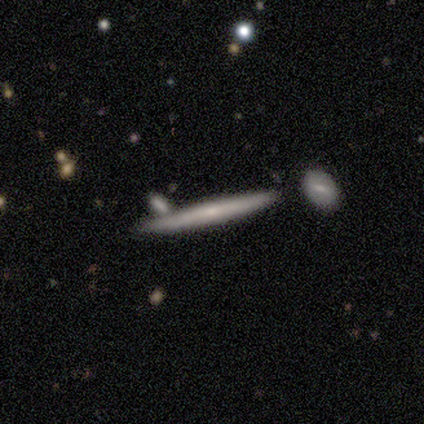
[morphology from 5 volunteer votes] Smooth or featured? smooth (60%)
How rounded? cigar-shaped (100%)
Merging? none (100%)